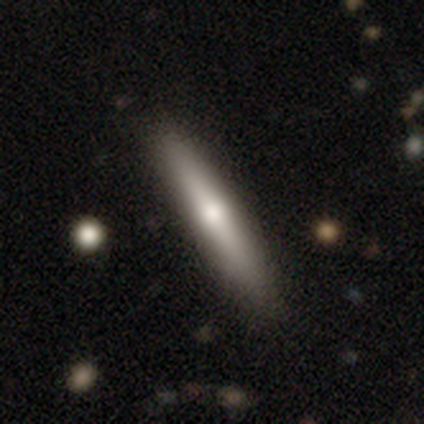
Overall: smooth (62%; featured or disk 33%). How rounded: cigar-shaped (92%). Merging: none (89%).